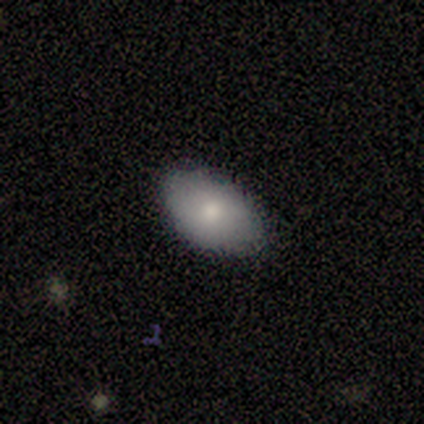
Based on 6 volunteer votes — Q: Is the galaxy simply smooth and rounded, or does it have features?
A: smooth — 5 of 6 (83%).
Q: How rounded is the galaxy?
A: in between — 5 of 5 (100%).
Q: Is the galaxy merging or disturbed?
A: none — 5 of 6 (83%).